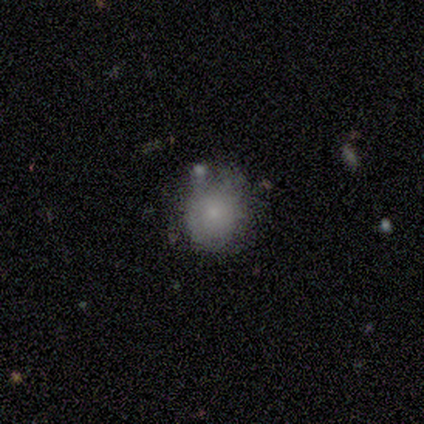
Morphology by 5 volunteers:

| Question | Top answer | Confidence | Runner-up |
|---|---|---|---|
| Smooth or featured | smooth | 80% | featured or disk (20%) |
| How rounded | round | 100% | — |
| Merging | none | 80% | merger (20%) |